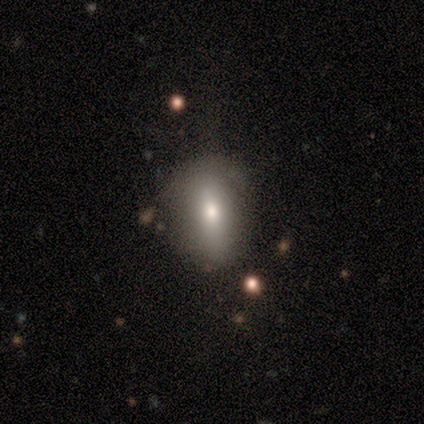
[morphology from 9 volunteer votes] Smooth or featured?
  - smooth: 78% *
  - featured or disk: 11%
  - star or artifact: 11%
How rounded?
  - in between: 100% *
  - round: 0%
  - cigar-shaped: 0%
Merging?
  - none: 62% *
  - minor disturbance: 38%
  - major disturbance: 0%
  - merger: 0%